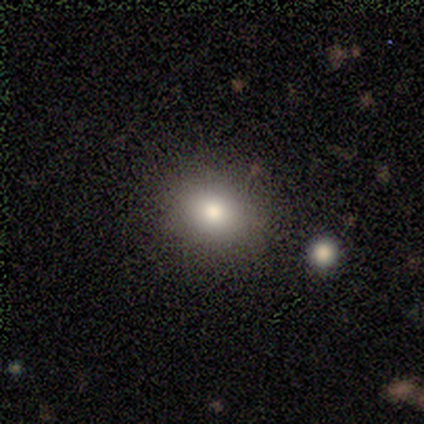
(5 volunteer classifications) Smooth or featured? smooth (60%)
How rounded? round (67%)
Merging? none (100%)